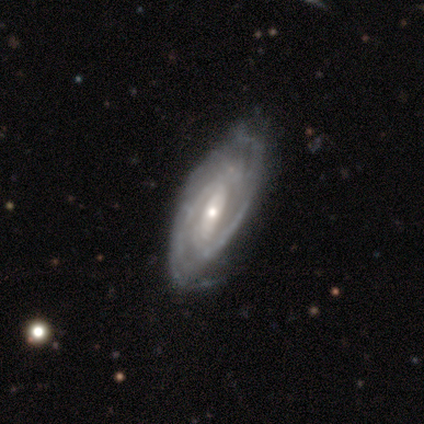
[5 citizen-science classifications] Smooth or featured? featured or disk (100%)
Edge-on disk? no (100%)
Bar? weak (60%)
Spiral arms? yes (100%)
Spiral winding? medium (60%)
Spiral arm count? 2 (60%)
Bulge size? small (80%)
Merging? none (60%)